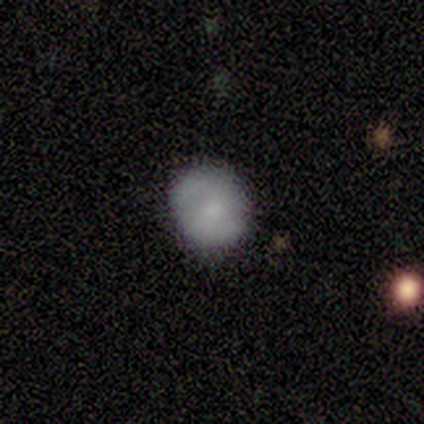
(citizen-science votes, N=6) Smooth or featured?
  - featured or disk: 67% *
  - smooth: 33%
  - star or artifact: 0%
Edge-on disk?
  - no: 100% *
  - yes: 0%
Bar?
  - no: 75% *
  - weak: 25%
  - strong: 0%
Spiral arms?
  - yes: 75% *
  - no: 25%
Spiral winding?
  - tight: 100% *
  - medium: 0%
  - loose: 0%
Spiral arm count?
  - 1: 33% * (tied)
  - 2: 33% * (tied)
  - can't tell: 33% * (tied)
  - 3: 0%
  - 4: 0%
  - more than 4: 0%
Bulge size?
  - moderate: 50% * (tied)
  - small: 50% * (tied)
  - dominant: 0%
  - large: 0%
  - none: 0%
Merging?
  - none: 100% *
  - minor disturbance: 0%
  - major disturbance: 0%
  - merger: 0%